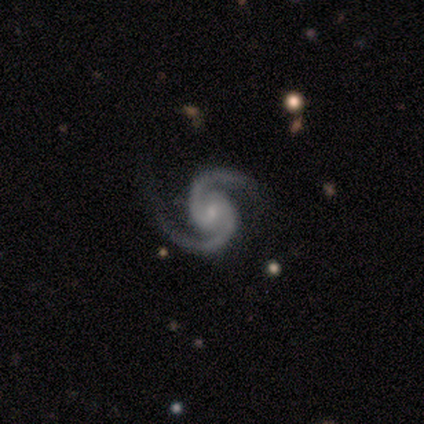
This is clearly a featured or disk galaxy (100%). It is clearly not viewed edge-on (100%). Bar: marginally weak (40%, tied with no). Spiral arm pattern: clearly yes (100%). Spiral arm count: clearly 2 (100%). Spiral winding: clearly medium (100%). Central bulge: likely small (60%). Merging: clearly none (80%).